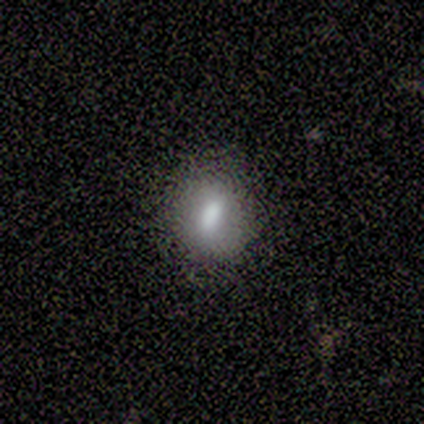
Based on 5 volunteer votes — Volunteers were most divided on "how rounded": round: 60%, in between: 40%, cigar-shaped: 0%. More confident: smooth or featured — smooth (100%); merging — none (80%).